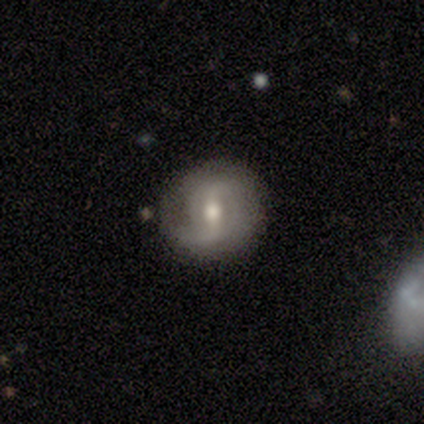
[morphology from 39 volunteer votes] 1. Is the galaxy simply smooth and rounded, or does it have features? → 87% featured or disk, 13% smooth, 0% star or artifact.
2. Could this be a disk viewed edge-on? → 94% no, 6% yes.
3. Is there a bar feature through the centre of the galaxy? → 50% weak, 28% strong, 22% no.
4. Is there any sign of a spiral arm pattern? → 88% yes, 12% no.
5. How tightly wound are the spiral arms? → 61% loose, 29% medium, 11% tight.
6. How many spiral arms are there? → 79% 2, 11% 1, 4% 3, 4% 4, 4% can't tell, 0% more than 4.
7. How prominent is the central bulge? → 53% moderate, 38% small, 9% large, 0% dominant, 0% none.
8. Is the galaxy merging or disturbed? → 77% none, 15% minor disturbance, 8% major disturbance, 0% merger.